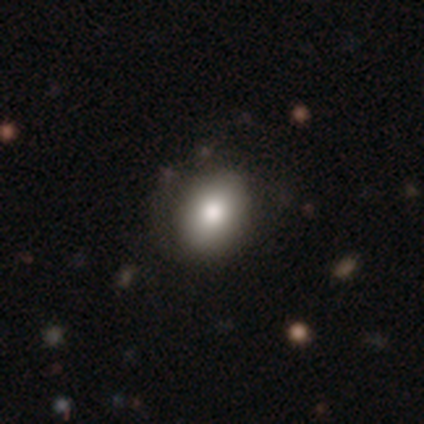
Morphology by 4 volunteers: Smooth or featured? 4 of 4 (100%) said smooth. How rounded? 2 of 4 (50%, tied with in between) said round. Merging? 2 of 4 (50%) said none.